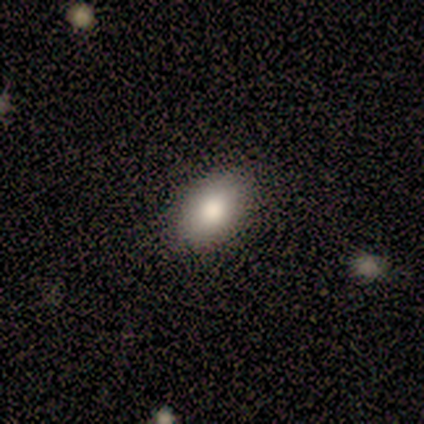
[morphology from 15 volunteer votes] Smooth or featured?
  - smooth: 100% *
  - featured or disk: 0%
  - star or artifact: 0%
How rounded?
  - in between: 100% *
  - round: 0%
  - cigar-shaped: 0%
Merging?
  - none: 93% *
  - minor disturbance: 7%
  - major disturbance: 0%
  - merger: 0%